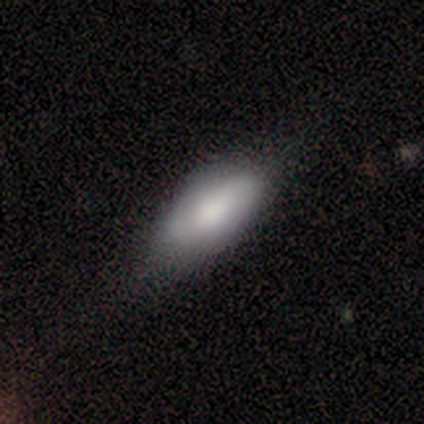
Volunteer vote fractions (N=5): This appears to be a smooth galaxy with no disk features (60%) that is in between round and cigar-shaped (100%). Merging: none (80%).